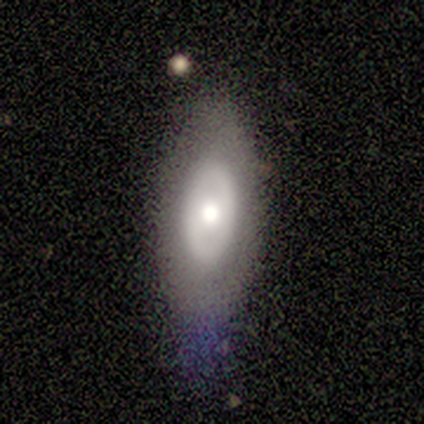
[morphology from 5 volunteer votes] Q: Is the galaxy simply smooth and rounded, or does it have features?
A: smooth — 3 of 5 (60%).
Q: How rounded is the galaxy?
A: in between — 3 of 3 (100%).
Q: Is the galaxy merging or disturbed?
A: none — 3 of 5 (60%).